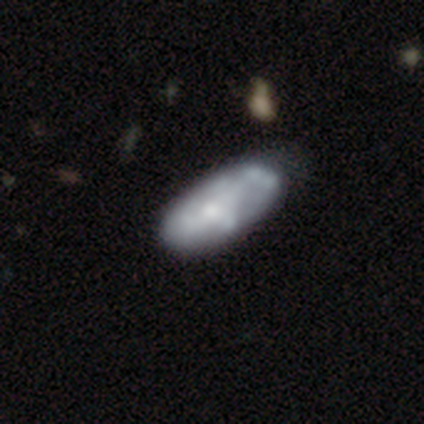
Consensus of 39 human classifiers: Smooth or featured? featured or disk (64%)
Edge-on disk? no (92%)
Bar? no (74%)
Spiral arms? no (61%)
Bulge size? moderate (48%)
Merging? none (42%)